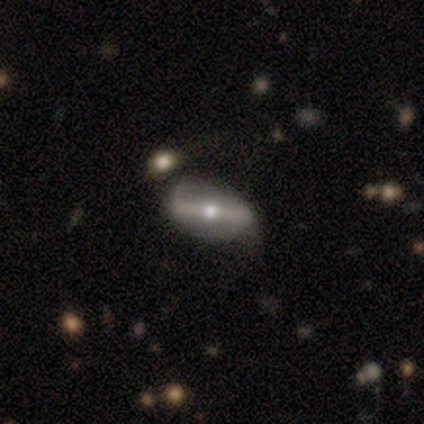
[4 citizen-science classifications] Smooth or featured? 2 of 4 (50%) said featured or disk. Edge-on disk? 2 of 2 (100%) said no. Bar? 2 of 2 (100%) said strong. Spiral arms? 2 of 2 (100%) said no. Bulge size? 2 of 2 (100%) said moderate. Merging? 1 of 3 (33%, tied with minor disturbance and merger) said none.